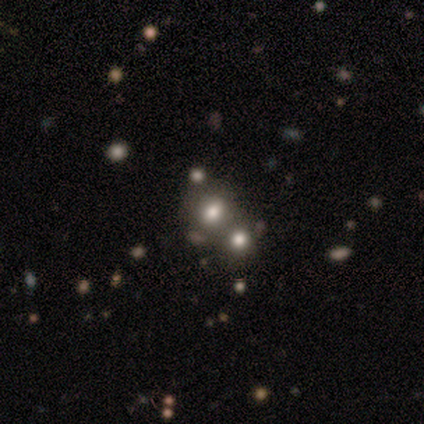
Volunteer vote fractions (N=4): A smooth galaxy with no disk features (50%, tied with star or artifact) that is in between round and cigar-shaped (100%). Merging: none (50%, tied with merger).